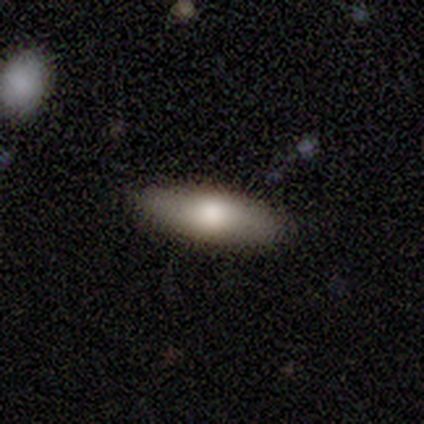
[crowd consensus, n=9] Smooth or featured: smooth — 78% (featured or disk — 11%)
How rounded: in between — 71% (cigar-shaped — 29%)
Merging: none — 62% (minor disturbance — 25%)